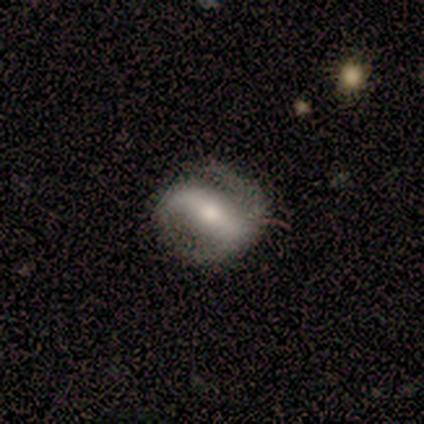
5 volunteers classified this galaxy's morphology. smooth_or_featured: featured or disk (p=0.80) [alt: smooth p=0.20]
disk_edge_on: no (p=1.00)
bar: strong (p=0.75) [alt: no p=0.25]
has_spiral_arms: yes (p=0.75) [alt: no p=0.25]
spiral_winding: tight (p=0.67) [alt: loose p=0.33]
spiral_arm_count: 2 (p=1.00)
bulge_size: large (p=0.25) [tied with: moderate p=0.25, small p=0.25, none p=0.25]
merging: none (p=0.60) [alt: minor disturbance p=0.40]